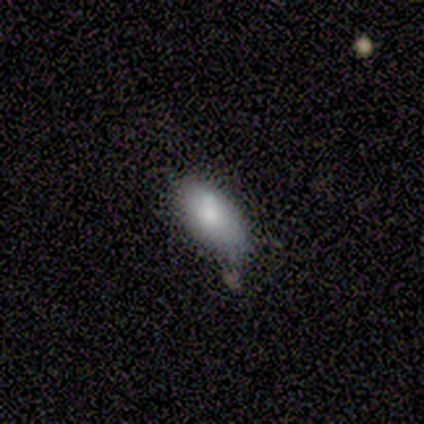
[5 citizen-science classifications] Smooth or featured? smooth (100%)
How rounded? in between (100%)
Merging? minor disturbance (60%)